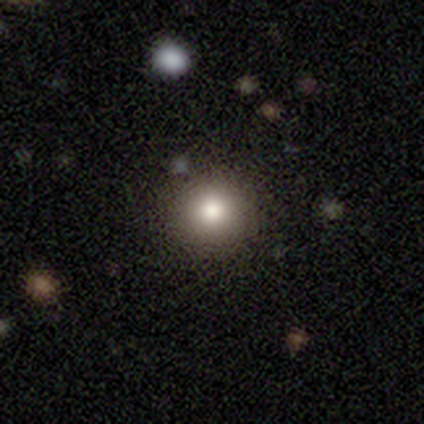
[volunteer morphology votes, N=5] Smooth or featured: smooth — 80% (star or artifact — 20%)
How rounded: round — 100%
Merging: none — 100%